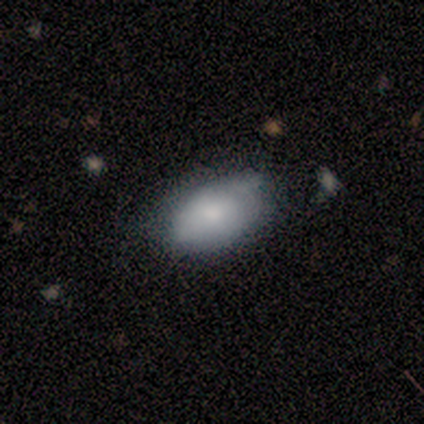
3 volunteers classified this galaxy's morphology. smooth_or_featured: smooth (p=1.00)
how_rounded: in between (p=0.67) [alt: round p=0.33]
merging: none (p=1.00)